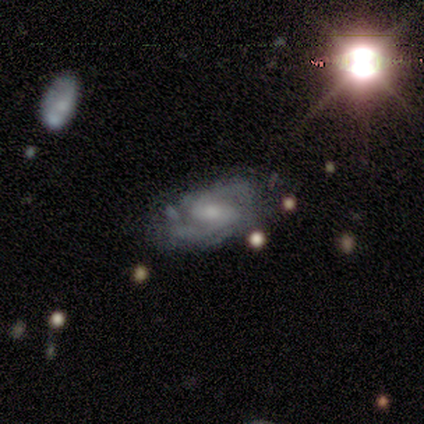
This appears to be a featured or disk galaxy (67%) with a weak bar (52%), 2 (67%) medium (52%) spiral arms (91%) and a moderate central bulge (48%). Merging: none (67%).